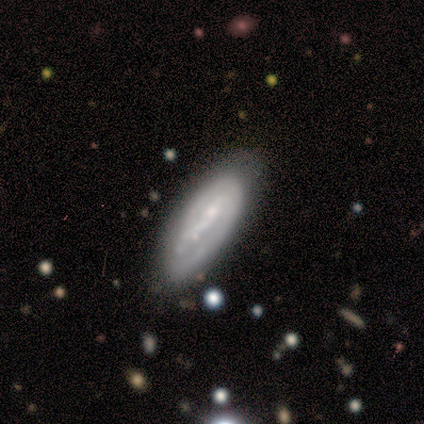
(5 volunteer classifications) Smooth or featured? smooth (40%, tied with featured or disk)
How rounded? in between (50%, tied with cigar-shaped)
Merging? none (75%)